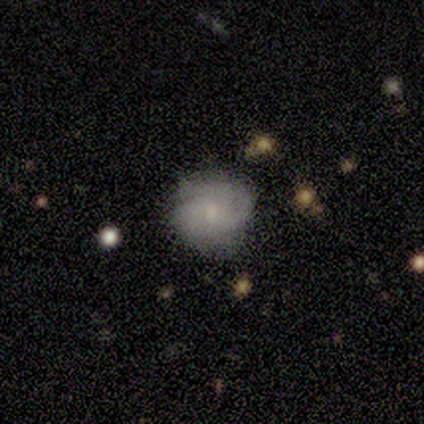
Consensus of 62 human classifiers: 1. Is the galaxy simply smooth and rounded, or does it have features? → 71% featured or disk, 26% smooth, 3% star or artifact.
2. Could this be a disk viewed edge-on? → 100% no, 0% yes.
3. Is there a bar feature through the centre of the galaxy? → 86% no, 14% weak, 0% strong.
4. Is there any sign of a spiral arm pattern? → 86% yes, 14% no.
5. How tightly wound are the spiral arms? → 66% tight, 26% medium, 8% loose.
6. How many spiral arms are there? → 50% 3, 24% can't tell, 11% 2, 8% 1, 8% 4, 0% more than 4.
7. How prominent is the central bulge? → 59% small, 32% moderate, 9% none, 0% dominant, 0% large.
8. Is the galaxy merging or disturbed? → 62% none, 33% minor disturbance, 3% major disturbance, 2% merger.